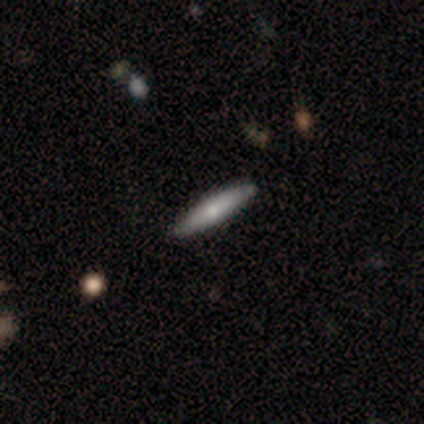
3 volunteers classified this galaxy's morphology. This appears to be a smooth galaxy with no disk features (67%) that is in between round and cigar-shaped (50%, tied with cigar-shaped). Merging: none (100%).